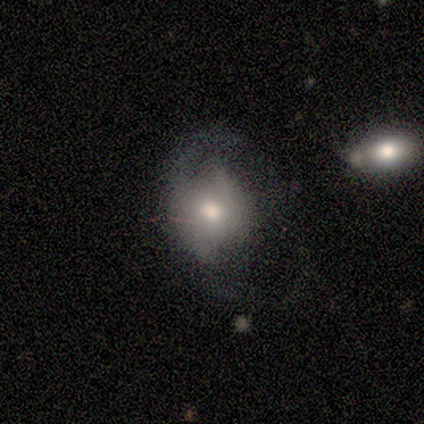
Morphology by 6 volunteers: A smooth galaxy with no disk features (83%) that is round (60%). Merging: none (50%, tied with major disturbance).